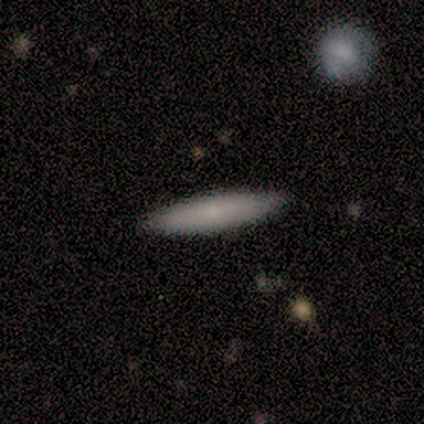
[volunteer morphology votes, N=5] A smooth galaxy with no disk features (60%) that is cigar-shaped (67%).

Vote fractions:
- Smooth or featured? smooth: 60% / featured or disk: 40% / star or artifact: 0%
- How rounded? cigar-shaped: 67% / in between: 33% / round: 0%
- Merging? none: 80% / merger: 20% / minor disturbance: 0% / major disturbance: 0%